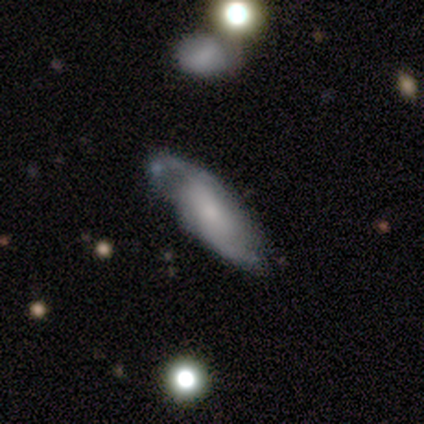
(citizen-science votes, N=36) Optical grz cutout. It shows a featured or disk galaxy (61%) with no bar (77%), 2 (79%) loose (42%) spiral arms (86%) and a small central bulge (45%). Merging: none (67%).